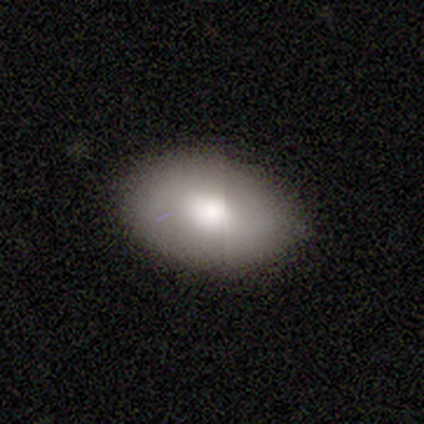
smooth-or-featured: smooth: 62% | featured or disk: 25% | star or artifact: 12%
  how-rounded: in between: 100% | round: 0% | cigar-shaped: 0%
  merging: none: 86% | minor disturbance: 14% | major disturbance: 0% | merger: 0%